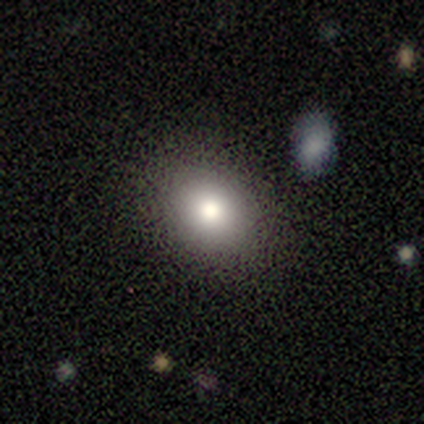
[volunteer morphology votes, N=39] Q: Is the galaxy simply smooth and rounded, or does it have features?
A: smooth — 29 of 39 (74%).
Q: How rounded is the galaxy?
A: round — 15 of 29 (52%).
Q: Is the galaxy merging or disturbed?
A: none — 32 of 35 (91%).